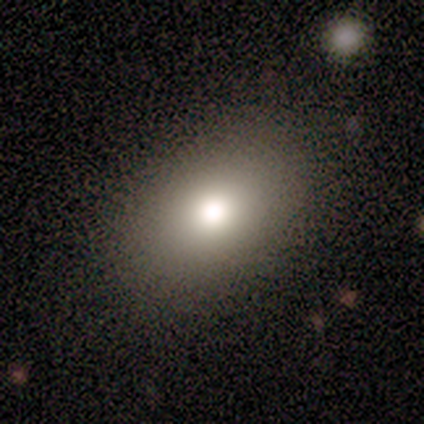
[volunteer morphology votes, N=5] Q: Smooth or featured?
A: smooth (100%)
Q: How rounded?
A: in between (100%)
Q: Merging?
A: none (100%)